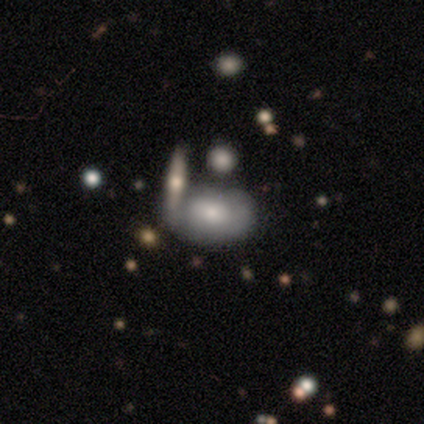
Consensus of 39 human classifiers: Volunteers were most divided on "smooth or featured": smooth: 56%, featured or disk: 41%, star or artifact: 3%. Remaining: how rounded — in between (95%); merging — merger (47%).